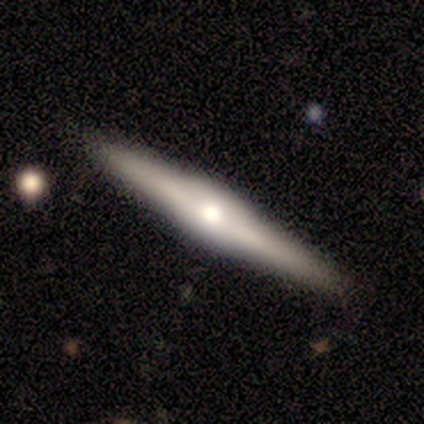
Smooth or featured?
  - featured or disk: 80% *
  - smooth: 20%
  - star or artifact: 0%
Edge-on disk?
  - yes: 100% *
  - no: 0%
Edge-on bulge?
  - rounded: 100% *
  - boxy: 0%
  - none: 0%
Merging?
  - none: 100% *
  - minor disturbance: 0%
  - major disturbance: 0%
  - merger: 0%